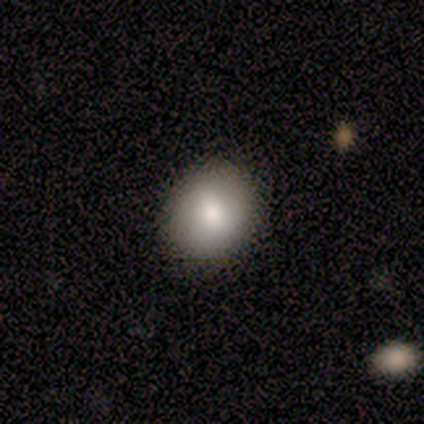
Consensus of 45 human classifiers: Q: Smooth or featured?
A: smooth (71%); runner-up: featured or disk (24%)
Q: How rounded?
A: round (59%); runner-up: in between (41%)
Q: Merging?
A: none (84%); runner-up: minor disturbance (14%)